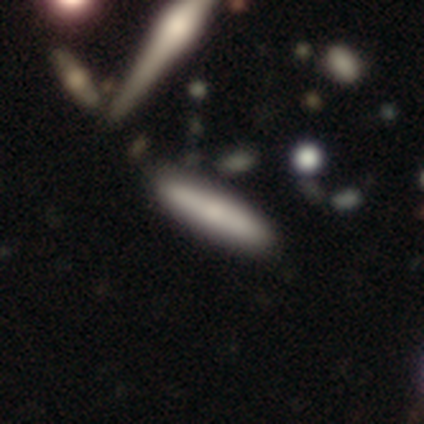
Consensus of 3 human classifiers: smooth 67%, featured or disk 33%, star or artifact 0%. Down the decision tree: how rounded — cigar-shaped (100%); merging — none (67%).